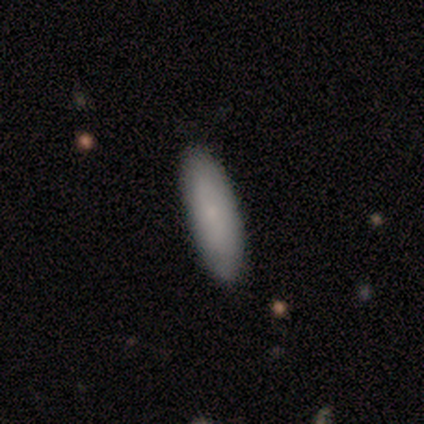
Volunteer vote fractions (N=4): A smooth galaxy with no disk features (75%) that is cigar-shaped (67%).

Vote fractions:
- Smooth or featured? smooth: 75% / featured or disk: 25% / star or artifact: 0%
- How rounded? cigar-shaped: 67% / in between: 33% / round: 0%
- Merging? none: 100% / minor disturbance: 0% / major disturbance: 0% / merger: 0%